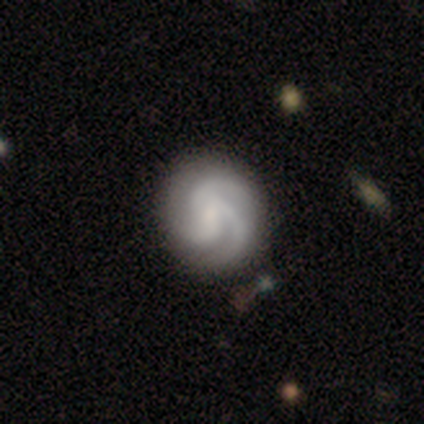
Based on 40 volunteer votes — Smooth or featured?
  - featured or disk: 95% *
  - smooth: 5%
  - star or artifact: 0%
Edge-on disk?
  - no: 97% *
  - yes: 3%
Bar?
  - no: 62% *
  - weak: 30%
  - strong: 8%
Spiral arms?
  - yes: 100% *
  - no: 0%
Spiral winding?
  - medium: 51% *
  - tight: 32%
  - loose: 16%
Spiral arm count?
  - 3: 84% *
  - 2: 8%
  - can't tell: 5%
  - 1: 3%
  - 4: 0%
  - more than 4: 0%
Bulge size?
  - small: 38% *
  - none: 32%
  - moderate: 27%
  - large: 3%
  - dominant: 0%
Merging?
  - none: 57% *
  - minor disturbance: 2%
  - major disturbance: 2%
  - merger: 2%